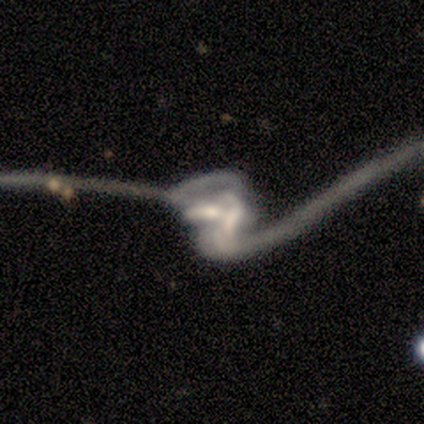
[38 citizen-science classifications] Smooth or featured? featured or disk (79%)
Edge-on disk? no (97%)
Bar? strong (34%, tied with no)
Spiral arms? yes (66%)
Spiral winding? loose (79%)
Spiral arm count? 2 (74%)
Bulge size? small (38%)
Merging? merger (54%)